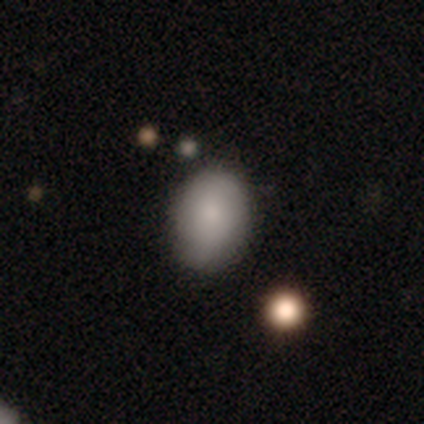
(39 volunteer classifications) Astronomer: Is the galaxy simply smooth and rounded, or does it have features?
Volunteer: smooth — 85%.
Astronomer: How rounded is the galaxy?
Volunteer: in between — 76%.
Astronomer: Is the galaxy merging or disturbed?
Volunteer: none — 69%.